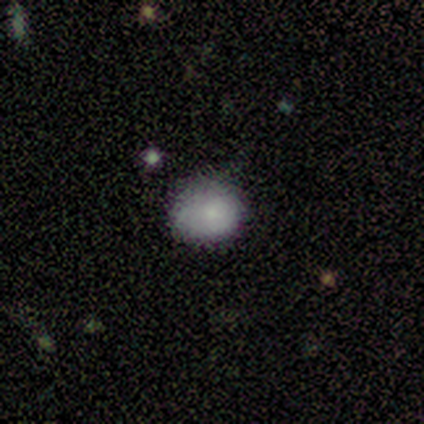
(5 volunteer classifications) Morphology: type=smooth (100%); roundness=round (80%); merging=none (100%).